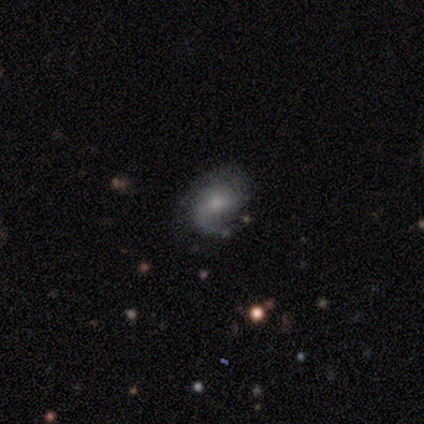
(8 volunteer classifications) A featured or disk galaxy (88%) with no bar (57%), 2 (71%) medium (57%) spiral arms (100%) and a small central bulge (71%).

Vote fractions:
- Smooth or featured? featured or disk: 88% / smooth: 12% / star or artifact: 0%
- Edge-on disk? no: 100% / yes: 0%
- Bar? no: 57% / weak: 43% / strong: 0%
- Spiral arms? yes: 100% / no: 0%
- Spiral winding? medium: 57% / loose: 29% / tight: 14%
- Spiral arm count? 2: 71% / 3: 14% / can't tell: 14% / 1: 0% / 4: 0% / more than 4: 0%
- Bulge size? small: 71% / moderate: 29% / dominant: 0% / large: 0% / none: 0%
- Merging? none: 75% / minor disturbance: 25% / major disturbance: 0% / merger: 0%